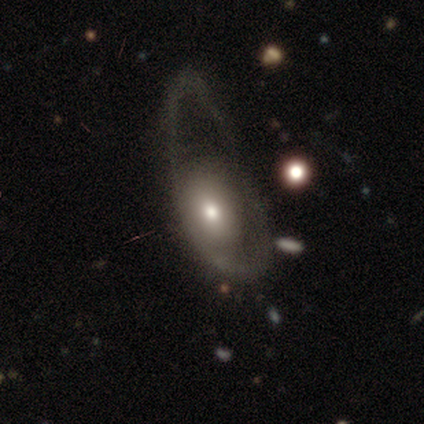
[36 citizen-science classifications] Overall: smooth (56%; featured or disk 42%). How rounded: in between (80%). Merging: major disturbance (69%).